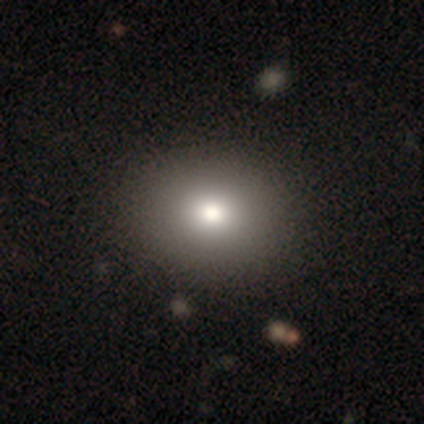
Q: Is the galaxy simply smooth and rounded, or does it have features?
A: smooth — 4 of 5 (80%).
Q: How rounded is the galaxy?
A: round — 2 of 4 (50%, tied with in between).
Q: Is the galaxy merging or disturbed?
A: none — 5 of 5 (100%).